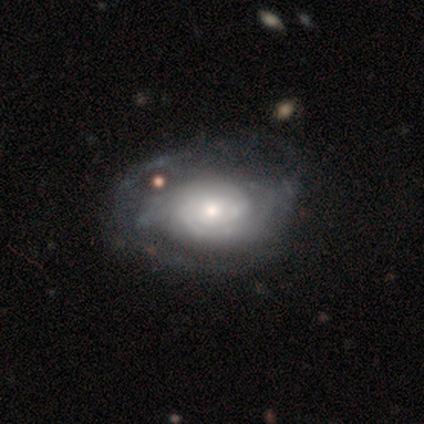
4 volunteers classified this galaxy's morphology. This appears to be a featured or disk galaxy (100%) with no bar (75%), 2 (50%, tied with can't tell) tight (75%) spiral arms (100%) and a moderate central bulge (50%, tied with small). Merging: major disturbance (50%).